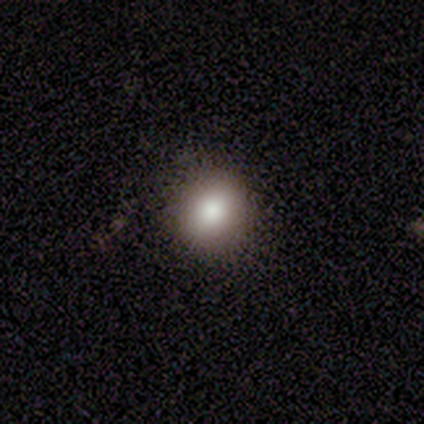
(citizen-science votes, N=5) Volunteers were most divided on "smooth or featured": smooth: 60%, star or artifact: 40%, featured or disk: 0%. More confident: merging — none (100%); how rounded — round (67%).